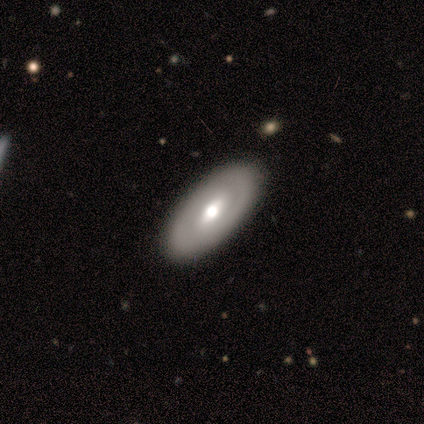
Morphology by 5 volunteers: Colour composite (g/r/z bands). It shows a featured or disk galaxy (60%) with a weak bar (100%), 2 (100%) tight (100%) spiral arms (50%, tied with no) and a moderate central bulge (100%). Merging: none (40%, tied with minor disturbance).